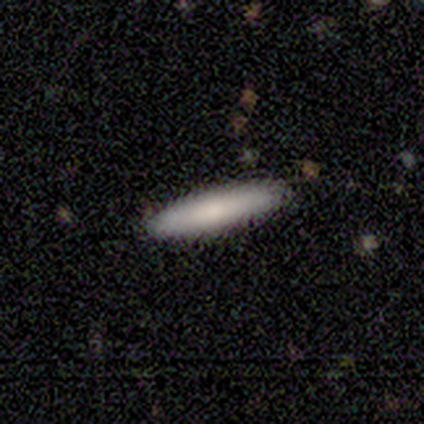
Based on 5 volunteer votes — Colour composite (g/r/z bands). It shows a smooth galaxy with no disk features (80%) that is cigar-shaped (75%). Merging: none (60%).